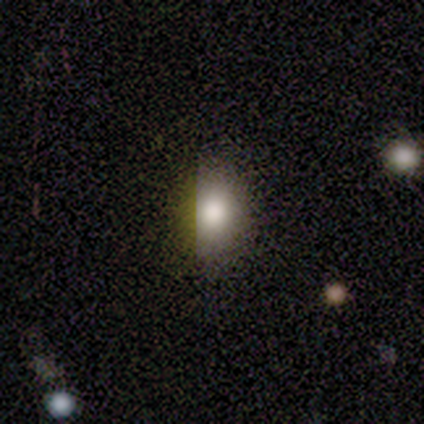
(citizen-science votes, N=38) A smooth galaxy with no disk features (84%) that is round (59%). Merging: none (71%).